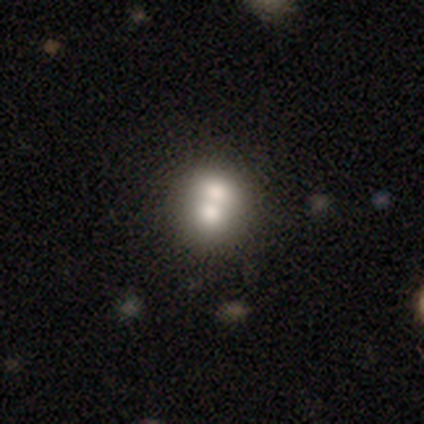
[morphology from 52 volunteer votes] This is likely a smooth galaxy (63%). How rounded: likely round (76%). Merging: likely merger (70%).